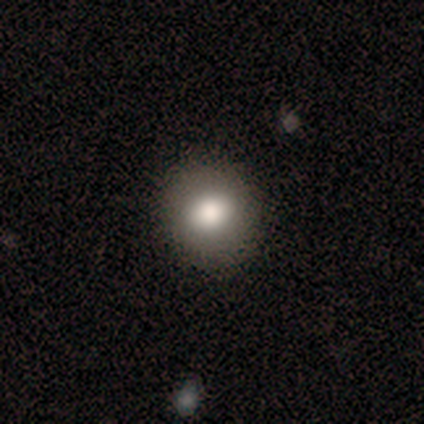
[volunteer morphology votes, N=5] Smooth or featured? smooth (100%)
How rounded? round (80%)
Merging? none (100%)